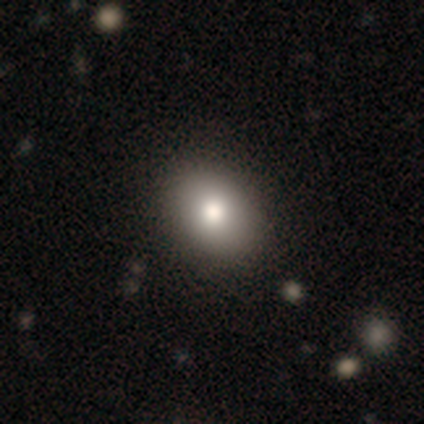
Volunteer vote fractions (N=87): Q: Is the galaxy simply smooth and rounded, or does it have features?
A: smooth — 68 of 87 (78%).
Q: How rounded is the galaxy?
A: in between — 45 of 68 (66%).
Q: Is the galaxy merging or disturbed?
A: none — 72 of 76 (95%).